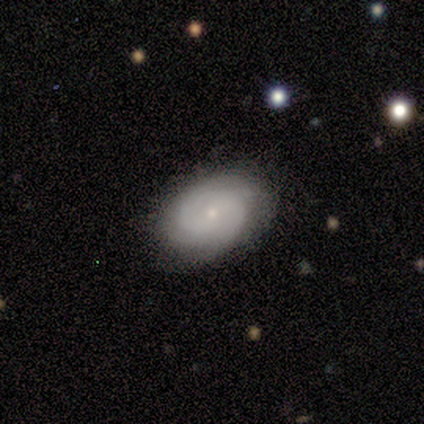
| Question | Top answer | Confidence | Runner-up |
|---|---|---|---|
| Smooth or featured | featured or disk | 80% | smooth (20%) |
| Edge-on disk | no | 100% | — |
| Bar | no | 75% | weak (25%) |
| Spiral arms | yes | 75% | no (25%) |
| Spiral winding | tight | 67% | medium (33%) |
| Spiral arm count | can't tell | 67% | 2 (33%) |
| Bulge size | small | 100% | — |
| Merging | none | 60% | minor disturbance (40%) |